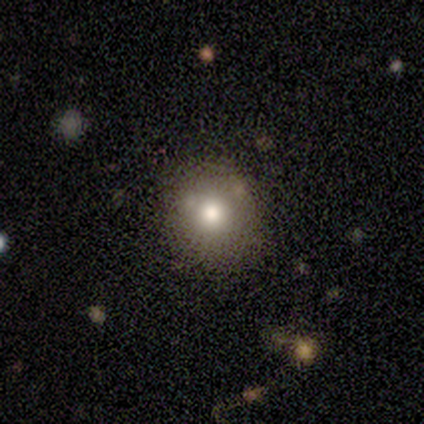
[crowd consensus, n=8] Q: Smooth or featured?
A: smooth (100%)
Q: How rounded?
A: round (88%); runner-up: in between (12%)
Q: Merging?
A: none (75%); runner-up: minor disturbance (25%)